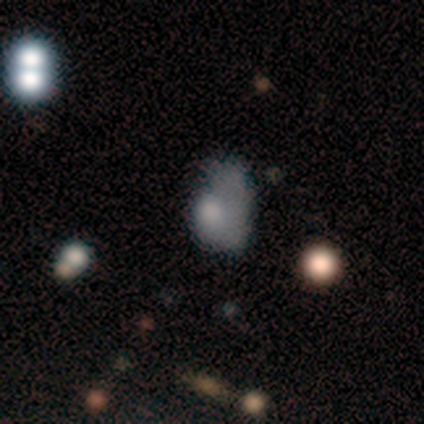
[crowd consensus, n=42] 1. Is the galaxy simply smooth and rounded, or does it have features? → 57% smooth, 38% featured or disk, 5% star or artifact.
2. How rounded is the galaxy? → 79% in between, 17% round, 4% cigar-shaped.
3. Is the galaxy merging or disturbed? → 40% minor disturbance, 35% major disturbance, 15% none, 10% merger.